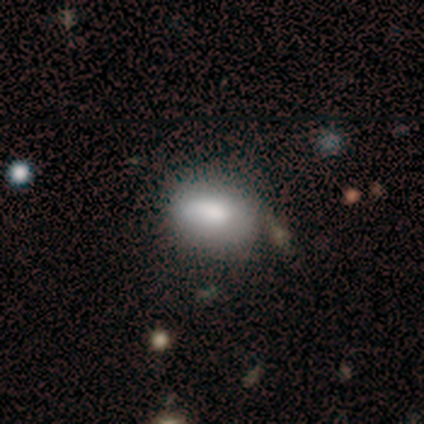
Smooth or featured: smooth — 100%
How rounded: in between — 100%
Merging: none — 60% (minor disturbance — 40%)